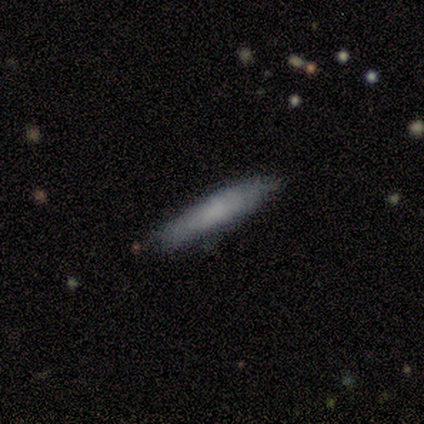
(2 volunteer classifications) A smooth galaxy with no disk features (100%) that is cigar-shaped (100%).

Vote fractions:
- Smooth or featured? smooth: 100% / featured or disk: 0% / star or artifact: 0%
- How rounded? cigar-shaped: 100% / round: 0% / in between: 0%
- Merging? minor disturbance: 100% / none: 0% / major disturbance: 0% / merger: 0%